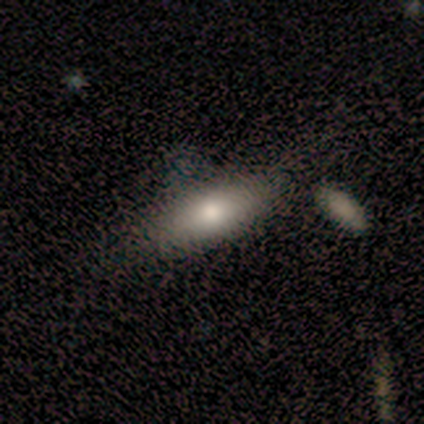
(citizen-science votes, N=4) Smooth or featured?
  - smooth: 100% *
  - featured or disk: 0%
  - star or artifact: 0%
How rounded?
  - in between: 75% *
  - cigar-shaped: 25%
  - round: 0%
Merging?
  - none: 75% *
  - merger: 25%
  - minor disturbance: 0%
  - major disturbance: 0%